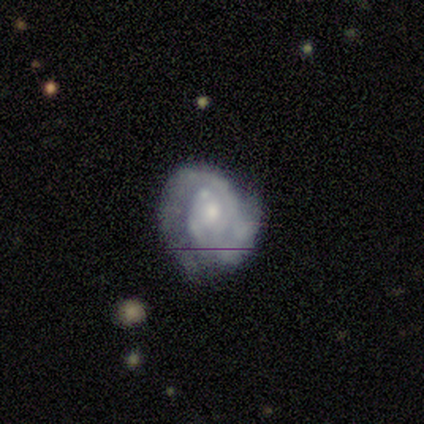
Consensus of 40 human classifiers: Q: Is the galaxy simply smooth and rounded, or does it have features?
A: featured or disk — 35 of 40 (88%).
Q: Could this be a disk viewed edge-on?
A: no — 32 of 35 (91%).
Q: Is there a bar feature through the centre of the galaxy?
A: no — 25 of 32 (78%).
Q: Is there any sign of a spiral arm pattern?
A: yes — 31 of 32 (97%).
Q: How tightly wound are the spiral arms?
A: tight — 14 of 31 (45%).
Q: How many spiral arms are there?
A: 2 — 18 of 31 (58%).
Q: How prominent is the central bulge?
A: small — 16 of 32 (50%).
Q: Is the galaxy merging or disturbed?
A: none — 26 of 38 (68%).